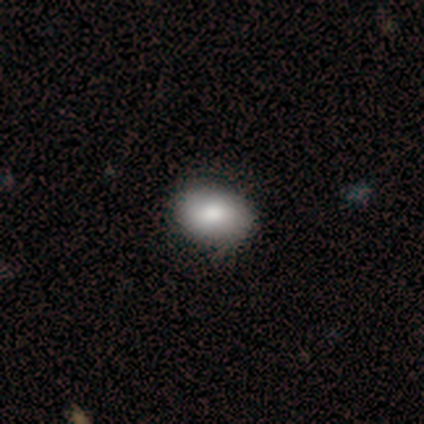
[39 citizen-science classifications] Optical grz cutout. It shows a smooth galaxy with no disk features (90%) that is in between round and cigar-shaped (80%). Merging: none (83%).